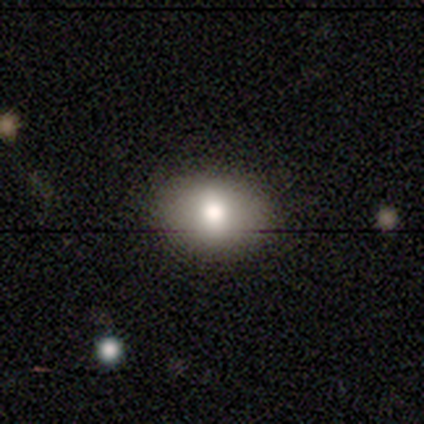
Smooth or featured? 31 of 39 (79%) said smooth. How rounded? 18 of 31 (58%) said in between. Merging? 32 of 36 (89%) said none.